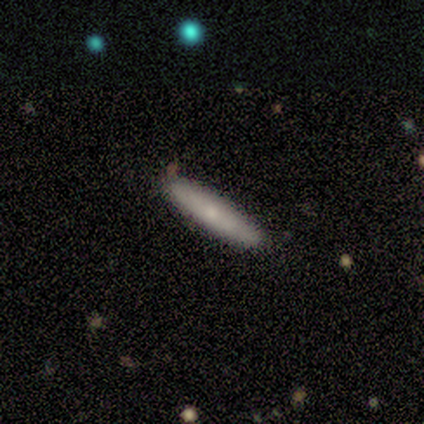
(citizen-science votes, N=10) This is likely a smooth galaxy (60%). How rounded: clearly cigar-shaped (83%). Merging: clearly none (90%).